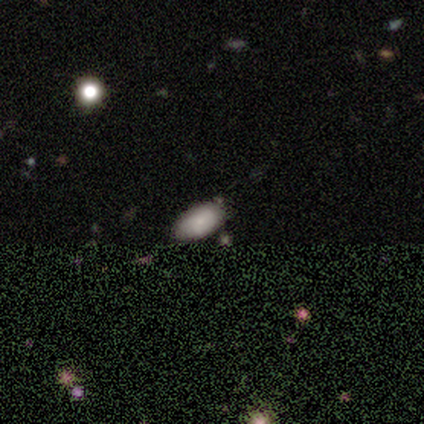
Smooth or featured? 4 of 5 (80%) said smooth. How rounded? 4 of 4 (100%) said in between. Merging? 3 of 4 (75%) said none.